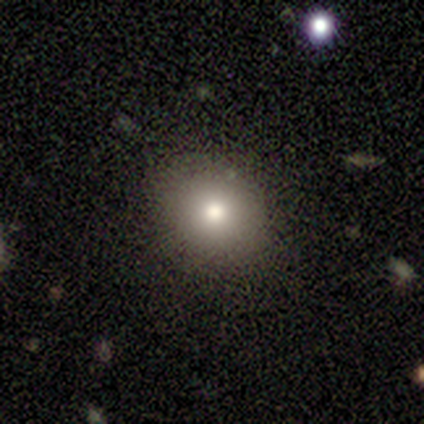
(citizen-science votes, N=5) A smooth galaxy with no disk features (60%) that is round (67%).

Vote fractions:
- Smooth or featured? smooth: 60% / featured or disk: 20% / star or artifact: 20%
- How rounded? round: 67% / in between: 33% / cigar-shaped: 0%
- Merging? none: 100% / minor disturbance: 0% / major disturbance: 0% / merger: 0%